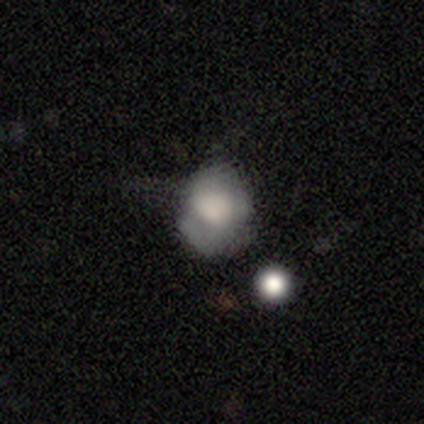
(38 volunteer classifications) Q: Smooth or featured?
A: smooth (66%); runner-up: featured or disk (26%)
Q: How rounded?
A: in between (56%); runner-up: round (44%)
Q: Merging?
A: none (43%); runner-up: minor disturbance (31%)